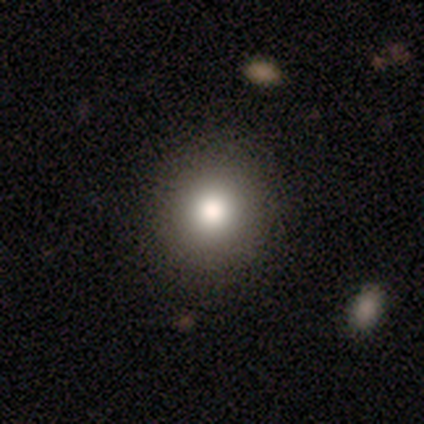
Smooth or featured?
  - smooth: 80% *
  - featured or disk: 10%
  - star or artifact: 10%
How rounded?
  - round: 91% *
  - in between: 9%
  - cigar-shaped: 0%
Merging?
  - none: 61% *
  - minor disturbance: 3%
  - major disturbance: 0%
  - merger: 0%